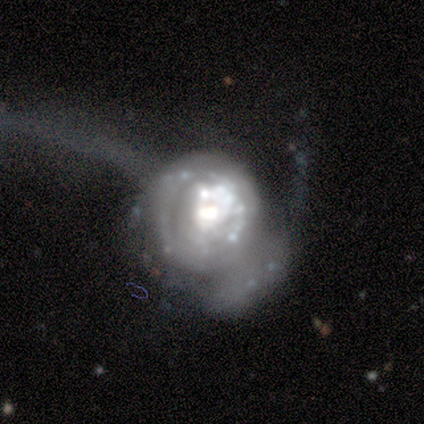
This appears to be a featured or disk galaxy (80%) with a weak bar (50%), 1 (33%, tied with more than 4 and can't tell) loose (67%) spiral arms (75%) and a moderate central bulge (50%). Merging: none (40%, tied with major disturbance).